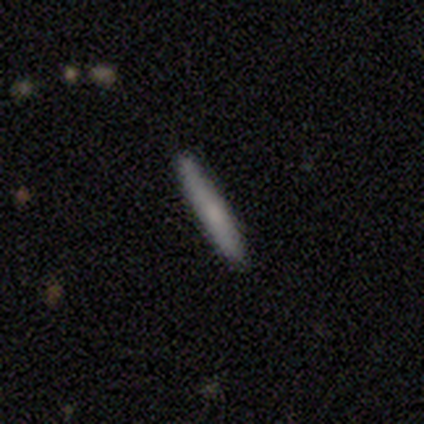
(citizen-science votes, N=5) Smooth or featured: smooth — 80% (featured or disk — 20%)
How rounded: cigar-shaped — 100%
Merging: none — 100%